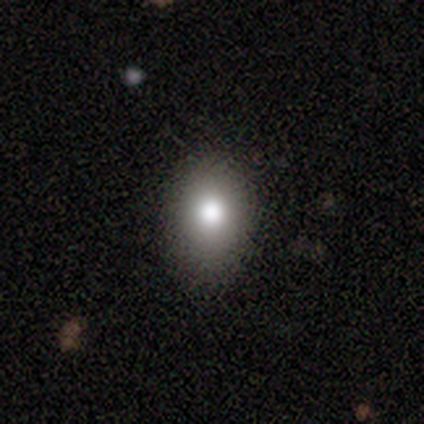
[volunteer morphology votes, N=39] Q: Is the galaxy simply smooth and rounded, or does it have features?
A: smooth — 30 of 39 (77%).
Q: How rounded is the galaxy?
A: in between — 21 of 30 (70%).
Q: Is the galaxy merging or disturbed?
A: none — 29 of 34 (85%).